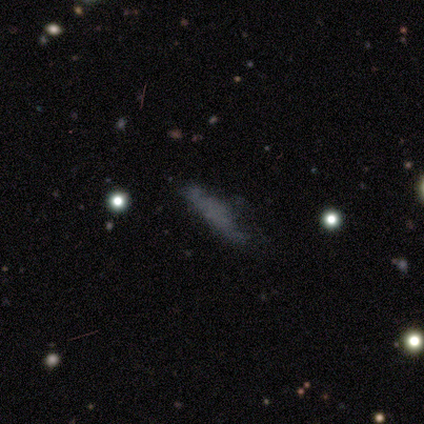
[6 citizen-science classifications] smooth_or_featured: smooth (p=0.67) [alt: featured or disk p=0.17]
how_rounded: cigar-shaped (p=0.75) [alt: in between p=0.25]
merging: minor disturbance (p=0.40) [tied with: major disturbance p=0.40]